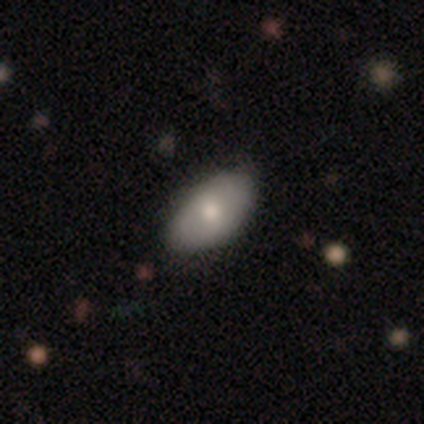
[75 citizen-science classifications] smooth_or_featured: smooth (p=0.77) [alt: featured or disk p=0.19]
how_rounded: in between (p=0.98) [alt: cigar-shaped p=0.02]
merging: none (p=0.81) [alt: minor disturbance p=0.17]